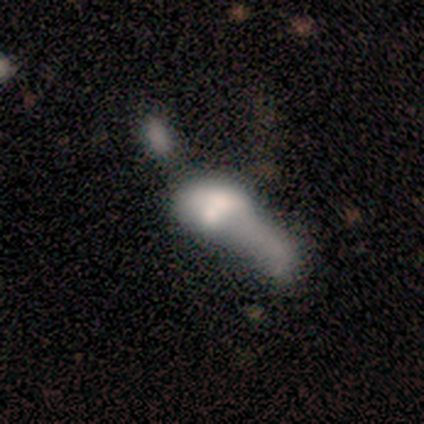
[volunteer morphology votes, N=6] This is likely a smooth galaxy (67%). How rounded: likely in between (75%). Merging: likely merger (67%).